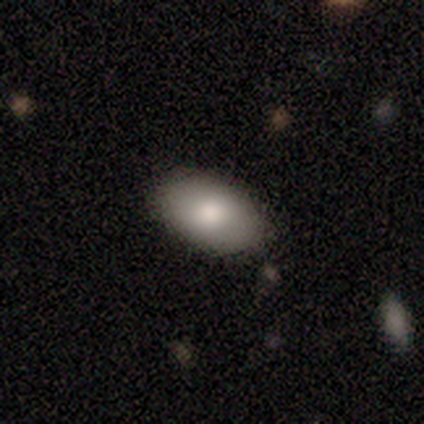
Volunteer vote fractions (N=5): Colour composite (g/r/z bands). It shows a smooth galaxy with no disk features (100%) that is in between round and cigar-shaped (100%). Merging: none (100%).